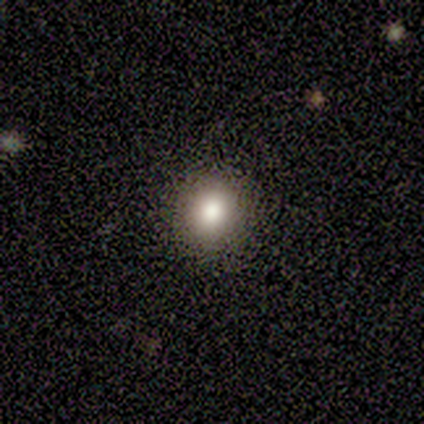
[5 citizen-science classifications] This is clearly a smooth galaxy (100%). How rounded: clearly round (80%). Merging: clearly none (80%).